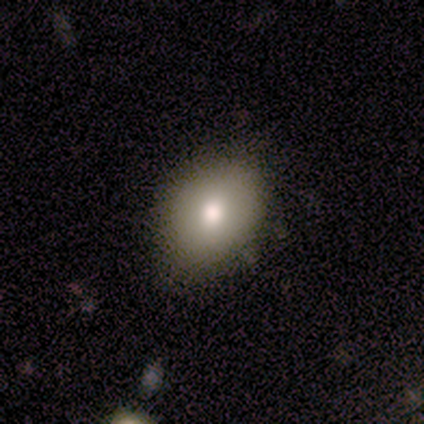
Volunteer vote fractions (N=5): This is clearly a smooth galaxy (100%). How rounded: clearly in between (100%). Merging: clearly none (80%).